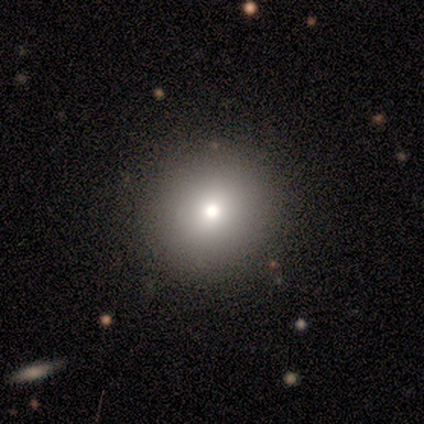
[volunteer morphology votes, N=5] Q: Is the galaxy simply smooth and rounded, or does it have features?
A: smooth — 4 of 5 (80%).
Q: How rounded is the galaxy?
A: round — 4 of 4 (100%).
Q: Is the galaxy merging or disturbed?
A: none — 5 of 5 (100%).